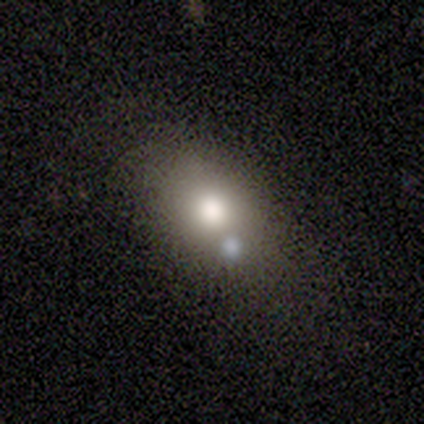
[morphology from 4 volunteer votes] This is clearly a smooth galaxy (100%). How rounded: likely in between (75%). Merging: clearly none (100%).